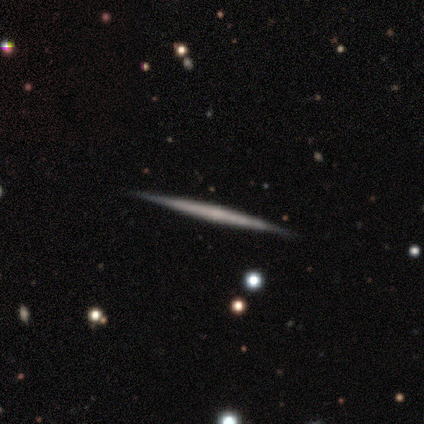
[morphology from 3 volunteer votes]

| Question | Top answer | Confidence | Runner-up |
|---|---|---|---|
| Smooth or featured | featured or disk | 67% | smooth (33%) |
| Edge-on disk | yes | 100% | — |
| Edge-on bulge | none | 100% | — |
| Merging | none | 100% | — |